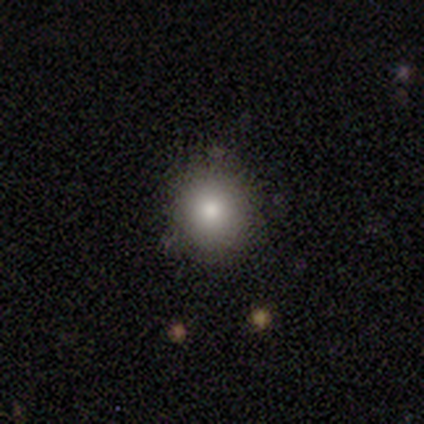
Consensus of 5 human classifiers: Overall: smooth (80%). How rounded: round (50%, tied with in between). Merging: none (100%).